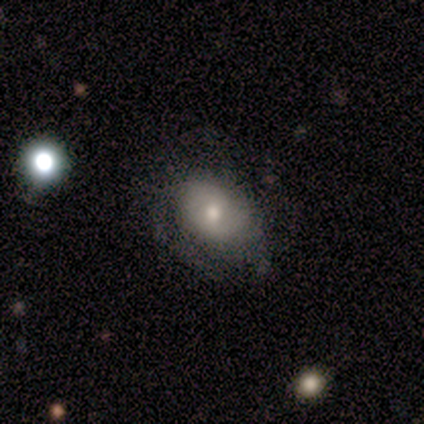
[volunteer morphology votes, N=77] Smooth or featured?
  - featured or disk: 49% *
  - smooth: 48%
  - star or artifact: 3%
Edge-on disk?
  - no: 100% *
  - yes: 0%
Bar?
  - no: 71% *
  - weak: 29%
  - strong: 0%
Spiral arms?
  - yes: 76% *
  - no: 24%
Spiral winding?
  - tight: 62% *
  - medium: 24%
  - loose: 14%
Spiral arm count?
  - can't tell: 48% *
  - 2: 34%
  - 1: 7%
  - 4: 7%
  - 3: 3%
  - more than 4: 0%
Bulge size?
  - moderate: 68% *
  - small: 24%
  - large: 8%
  - dominant: 0%
  - none: 0%
Merging?
  - none: 47% *
  - minor disturbance: 31%
  - major disturbance: 19%
  - merger: 4%